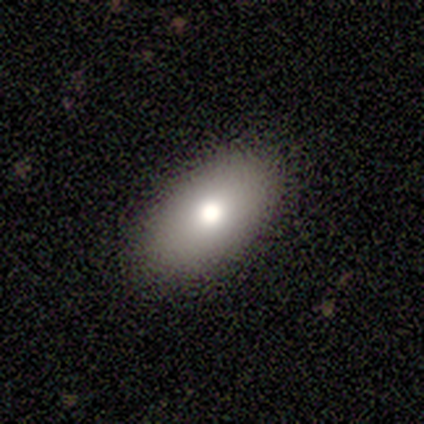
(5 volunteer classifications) Smooth or featured? smooth (100%)
How rounded? in between (100%)
Merging? none (100%)